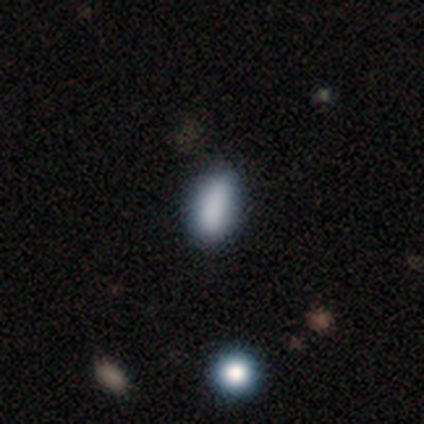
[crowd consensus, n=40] This appears to be a smooth galaxy with no disk features (88%) that is in between round and cigar-shaped (86%). Merging: none (51%).